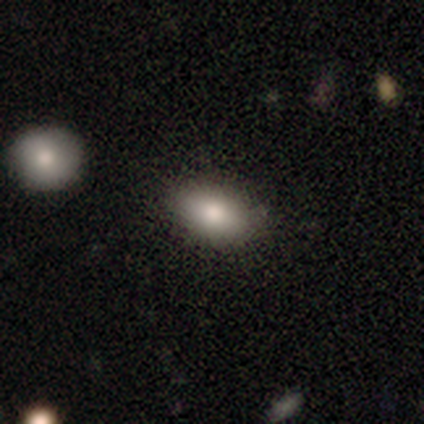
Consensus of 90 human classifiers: A smooth galaxy with no disk features (80%) that is in between round and cigar-shaped (92%). Merging: none (84%).